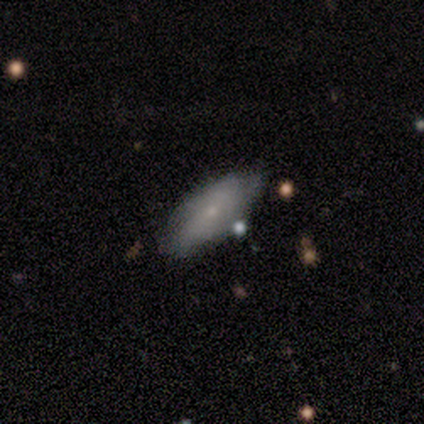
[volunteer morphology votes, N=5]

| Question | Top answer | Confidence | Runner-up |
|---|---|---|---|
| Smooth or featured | featured or disk | 80% | smooth (20%) |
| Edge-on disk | no | 100% | — |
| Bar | weak | 50% | tied: no (50%) |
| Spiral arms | yes | 75% | no (25%) |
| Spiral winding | tight | 67% | medium (33%) |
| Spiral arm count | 2 | 67% | can't tell (33%) |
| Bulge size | small | 100% | — |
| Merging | none | 60% | minor disturbance (40%) |